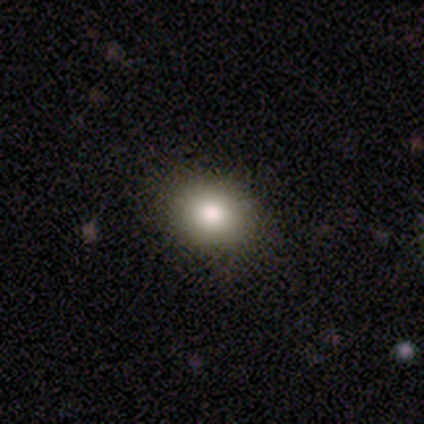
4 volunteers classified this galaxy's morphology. type=smooth (100%); roundness=round (50%, tied with in between); merging=none (100%).